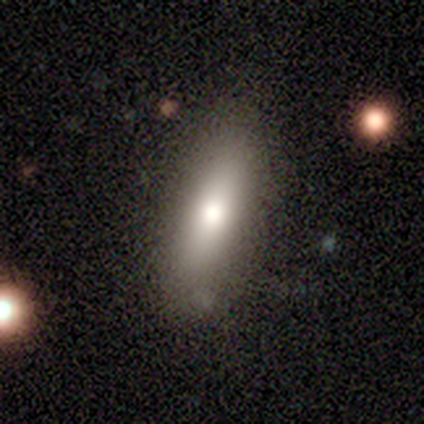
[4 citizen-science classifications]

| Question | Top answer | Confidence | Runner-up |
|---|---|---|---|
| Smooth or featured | smooth | 50% | featured or disk (25%) |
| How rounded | in between | 100% | — |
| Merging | none | 100% | — |